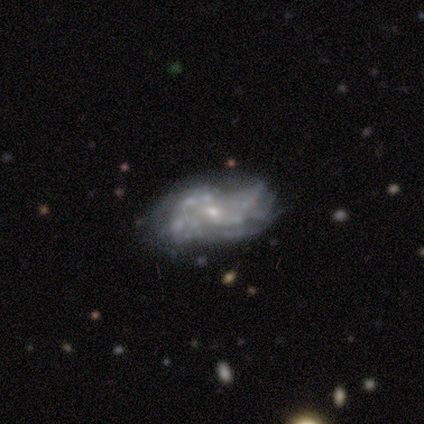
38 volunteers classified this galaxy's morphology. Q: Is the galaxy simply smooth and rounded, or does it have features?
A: featured or disk — 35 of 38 (92%).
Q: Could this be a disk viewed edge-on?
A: no — 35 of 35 (100%).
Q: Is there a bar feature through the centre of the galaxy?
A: no — 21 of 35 (60%).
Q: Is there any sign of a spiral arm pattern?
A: yes — 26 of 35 (74%).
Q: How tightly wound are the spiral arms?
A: loose — 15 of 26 (58%).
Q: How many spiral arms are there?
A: can't tell — 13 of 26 (50%).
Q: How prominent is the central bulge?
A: small — 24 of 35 (69%).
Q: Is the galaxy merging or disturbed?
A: none — 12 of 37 (32%).